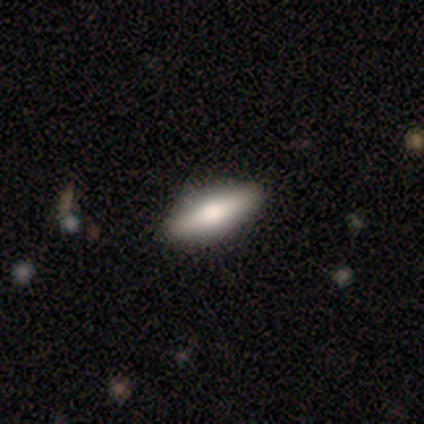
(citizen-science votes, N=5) A featured or disk galaxy (60%) viewed edge-on (67%) with a boxy central bulge (50%, tied with rounded). Merging: none (100%).